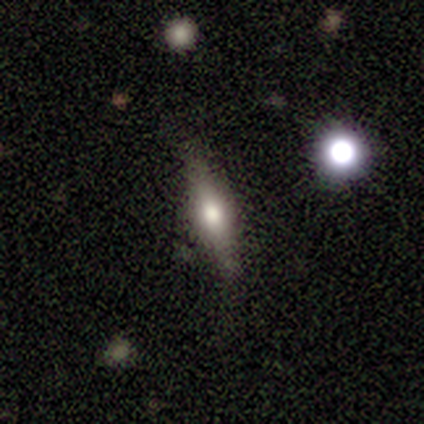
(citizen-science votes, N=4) Q: Smooth or featured?
A: featured or disk (50%); runner-up: smooth (25%)
Q: Edge-on disk?
A: yes (100%)
Q: Edge-on bulge?
A: rounded (100%)
Q: Merging?
A: none (100%)